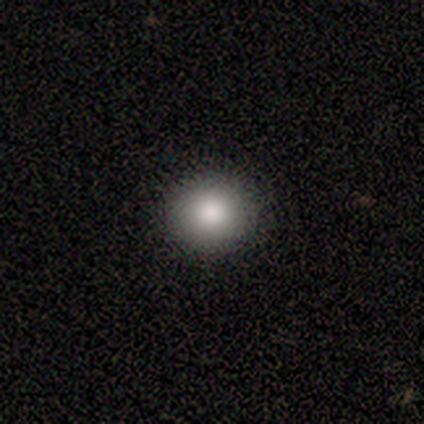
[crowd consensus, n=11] This is likely a smooth galaxy (64%). How rounded: clearly round (100%). Merging: clearly none (100%).